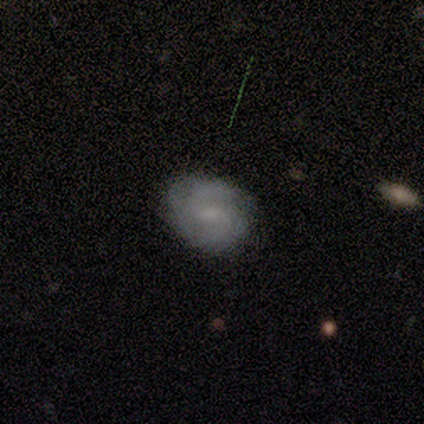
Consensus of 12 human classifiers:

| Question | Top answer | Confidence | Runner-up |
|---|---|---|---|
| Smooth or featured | featured or disk | 58% | smooth (42%) |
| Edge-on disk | no | 100% | — |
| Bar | weak | 71% | no (29%) |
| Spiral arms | yes | 100% | — |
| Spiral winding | medium | 57% | tight (29%) |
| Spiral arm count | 2 | 71% | 3 (14%) |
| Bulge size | small | 43% | tied: none (43%) |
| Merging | none | 75% | minor disturbance (25%) |